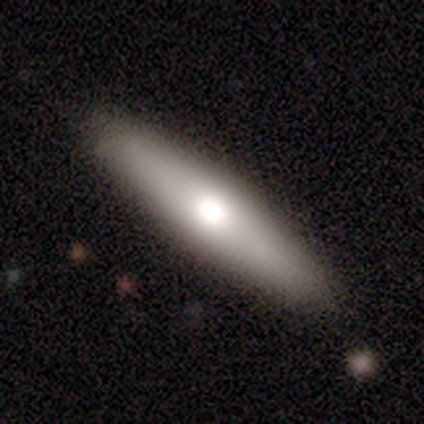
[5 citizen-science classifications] smooth-or-featured: featured or disk: 60% | smooth: 40% | star or artifact: 0%
  disk-edge-on: yes: 67% | no: 33%
    edge-on-bulge: rounded: 100% | boxy: 0% | none: 0%
  merging: none: 100% | minor disturbance: 0% | major disturbance: 0% | merger: 0%